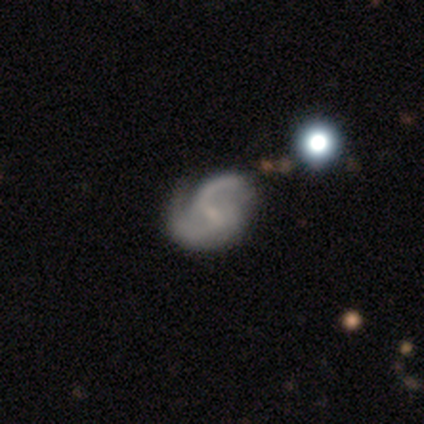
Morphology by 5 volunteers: smooth_or_featured: featured or disk (p=1.00)
disk_edge_on: no (p=1.00)
bar: weak (p=0.80) [alt: no p=0.20]
has_spiral_arms: yes (p=1.00)
spiral_winding: loose (p=0.80) [alt: medium p=0.20]
spiral_arm_count: 2 (p=1.00)
bulge_size: small (p=0.40) [tied with: none p=0.40]
merging: none (p=0.80) [alt: minor disturbance p=0.20]